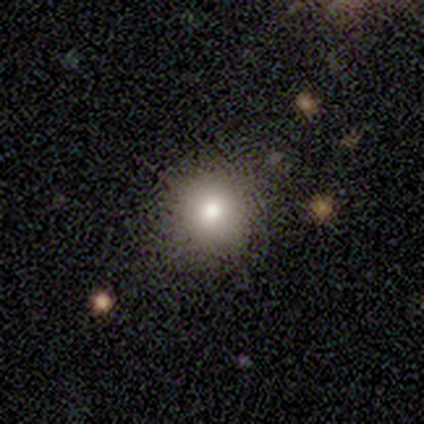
Volunteers were most divided on "smooth or featured": smooth: 78%, featured or disk: 14%, star or artifact: 8%. More confident: merging — none (91%); how rounded — round (82%).